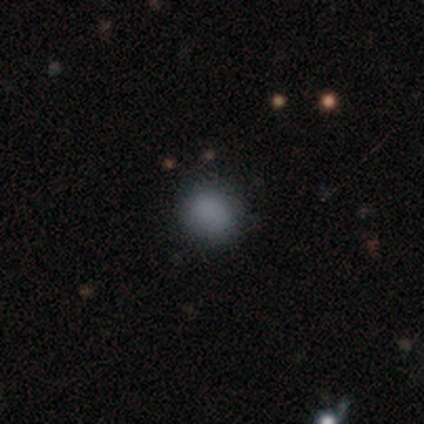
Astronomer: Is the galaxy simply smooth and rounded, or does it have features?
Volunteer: smooth — 50%.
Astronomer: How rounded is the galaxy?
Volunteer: round — 50%, tied with in between at 50%.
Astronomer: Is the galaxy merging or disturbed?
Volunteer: none — 100%.